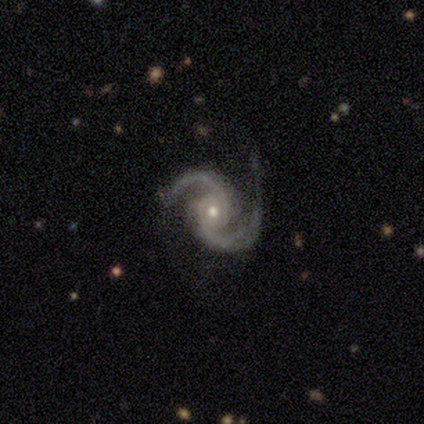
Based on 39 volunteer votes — Volunteers were most divided on "bulge size": small: 53%, moderate: 47%, dominant: 0%, large: 0%, none: 0%. More confident: spiral arms — yes (100%); spiral arm count — 2 (100%); edge-on disk — no (97%); smooth or featured — featured or disk (95%); bar — no (83%); spiral winding — medium (78%); merging — none (61%).